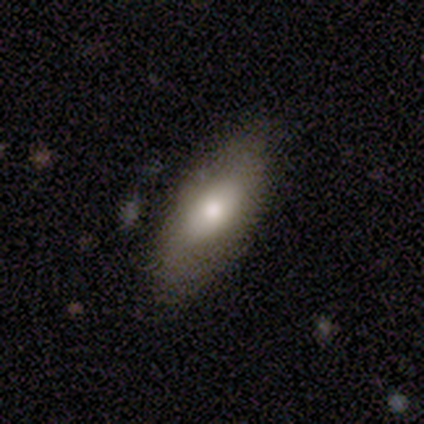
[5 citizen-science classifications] smooth-or-featured: smooth: 60% | featured or disk: 20% | star or artifact: 20%
  how-rounded: in between: 67% | cigar-shaped: 33% | round: 0%
  merging: none: 100% | minor disturbance: 0% | major disturbance: 0% | merger: 0%